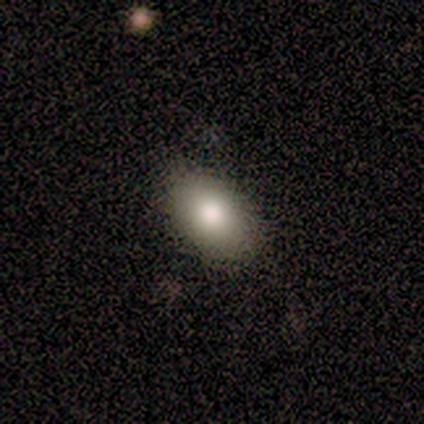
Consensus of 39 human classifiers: This is clearly a smooth galaxy (85%). How rounded: clearly in between (88%). Merging: clearly none (86%).